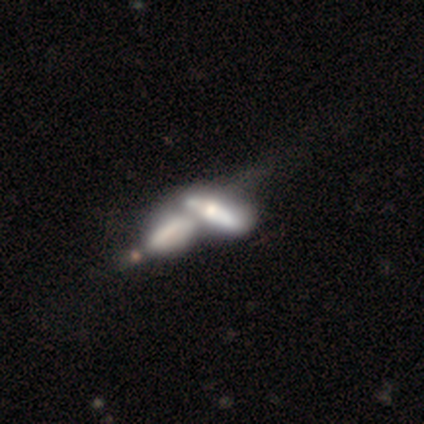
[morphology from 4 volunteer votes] Volunteers were most divided on "how rounded": in between: 67%, cigar-shaped: 33%, round: 0%. More confident: smooth or featured — smooth (75%); merging — merger (75%).